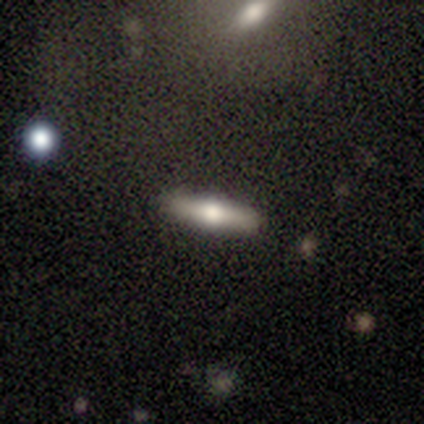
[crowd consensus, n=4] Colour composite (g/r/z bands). It shows a smooth galaxy with no disk features (75%) that is cigar-shaped (67%). Merging: none (100%).